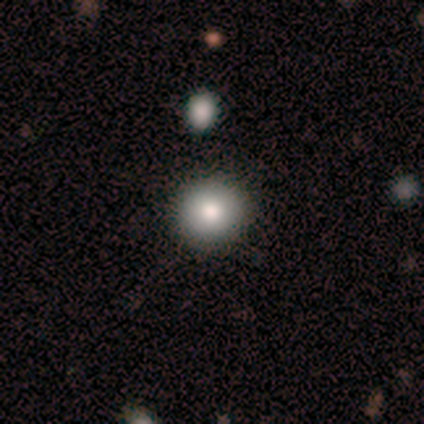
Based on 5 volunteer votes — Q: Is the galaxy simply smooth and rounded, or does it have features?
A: smooth — 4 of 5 (80%).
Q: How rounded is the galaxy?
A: round — 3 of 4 (75%).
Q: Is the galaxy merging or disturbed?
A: none — 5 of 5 (100%).